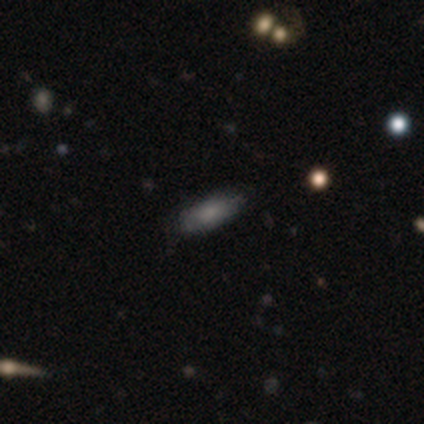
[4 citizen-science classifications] Overall: smooth (75%). How rounded: in between (100%). Merging: none (100%).